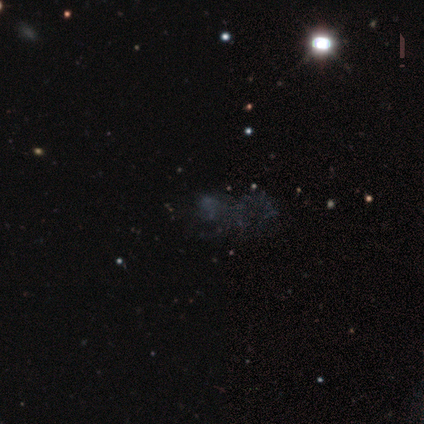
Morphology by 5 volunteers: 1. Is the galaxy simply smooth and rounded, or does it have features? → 40% smooth (tied), 40% star or artifact (tied), 20% featured or disk.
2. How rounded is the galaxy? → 100% in between, 0% round, 0% cigar-shaped.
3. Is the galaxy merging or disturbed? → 67% major disturbance, 33% none, 0% minor disturbance, 0% merger.